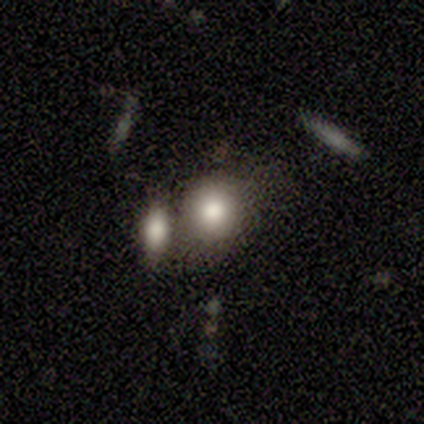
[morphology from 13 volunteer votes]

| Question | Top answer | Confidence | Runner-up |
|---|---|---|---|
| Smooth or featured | smooth | 77% | star or artifact (15%) |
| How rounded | round | 60% | in between (40%) |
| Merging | none | 45% | minor disturbance (27%) |